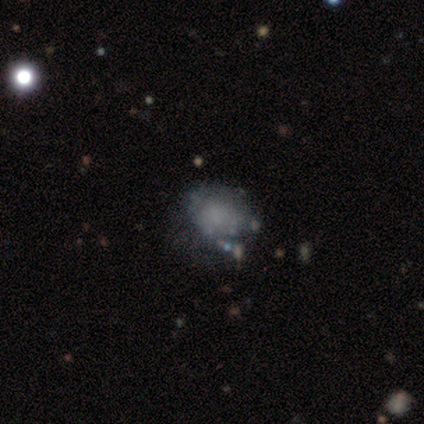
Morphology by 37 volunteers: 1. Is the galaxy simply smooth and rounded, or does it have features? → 49% featured or disk, 41% smooth, 11% star or artifact.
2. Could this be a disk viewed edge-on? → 100% no, 0% yes.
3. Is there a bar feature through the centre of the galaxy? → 94% no, 6% weak, 0% strong.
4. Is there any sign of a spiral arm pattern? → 72% no, 28% yes.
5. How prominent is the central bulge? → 72% none, 28% small, 0% dominant, 0% large, 0% moderate.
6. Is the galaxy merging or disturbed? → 27% none (tied), 27% minor disturbance (tied), 18% major disturbance, 6% merger.